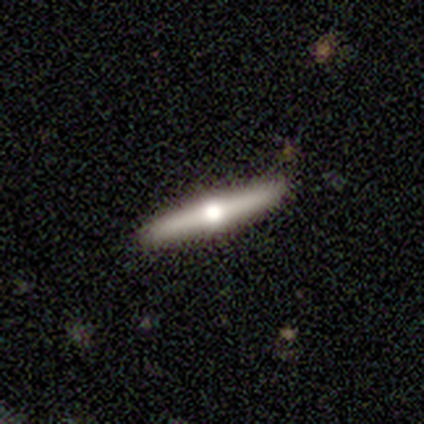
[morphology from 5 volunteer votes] Smooth or featured: featured or disk — 80% (smooth — 20%)
Edge-on disk: yes — 100%
Edge-on bulge: rounded — 100%
Merging: none — 100%